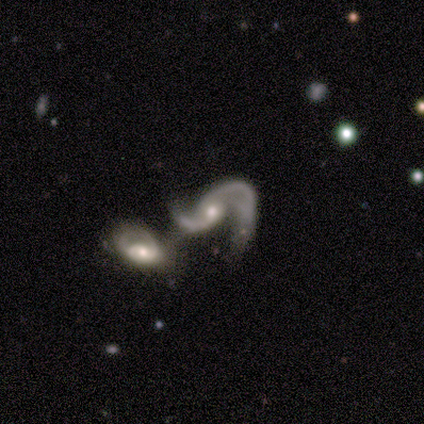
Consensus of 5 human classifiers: This is clearly a featured or disk galaxy (100%). It is clearly not viewed edge-on (100%). Bar: clearly no (80%). Spiral arm pattern: clearly yes (80%). Spiral arm count: clearly 2 (100%). Spiral winding: likely medium (75%). Central bulge: marginally moderate (40%, tied with small). Merging: clearly merger (80%).